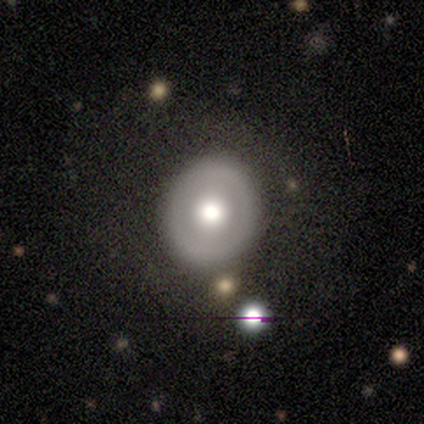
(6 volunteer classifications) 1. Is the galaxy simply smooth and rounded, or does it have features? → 50% smooth (tied), 50% featured or disk (tied), 0% star or artifact.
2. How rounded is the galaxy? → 100% round, 0% in between, 0% cigar-shaped.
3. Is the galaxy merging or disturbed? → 67% none, 33% minor disturbance, 0% major disturbance, 0% merger.